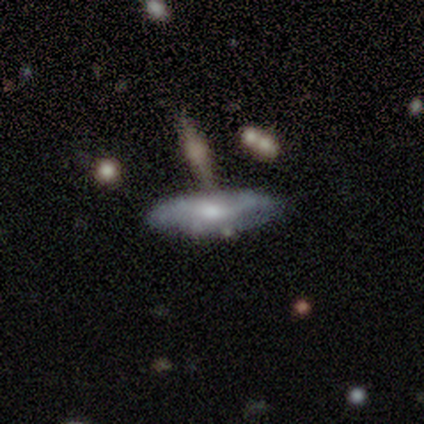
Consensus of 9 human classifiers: Volunteers were most divided on "spiral arms" (2-way tie): yes: 50%, no: 50%; "spiral winding" (2-way tie): tight: 50%, medium: 50%, loose: 0%; "spiral arm count" (2-way tie): 2: 50%, 3: 50%, 1: 0%, 4: 0%, more than 4: 0%, can't tell: 0%. Remaining: edge-on disk — no (100%); merging — none (86%); bar — no (75%); bulge size — small (50%); smooth or featured — featured or disk (44%).